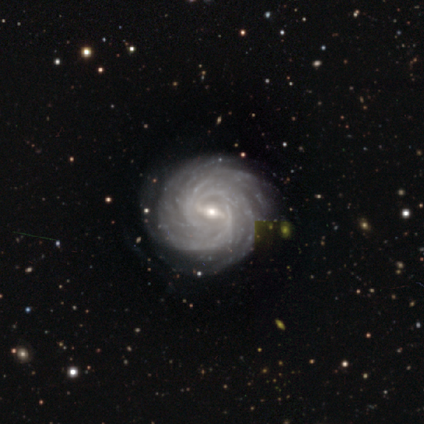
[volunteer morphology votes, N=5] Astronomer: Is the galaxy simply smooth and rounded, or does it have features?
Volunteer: featured or disk — 100%.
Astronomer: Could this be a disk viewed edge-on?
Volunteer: no — 100%.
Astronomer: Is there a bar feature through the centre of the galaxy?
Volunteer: weak — 80%.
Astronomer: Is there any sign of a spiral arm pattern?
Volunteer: yes — 100%.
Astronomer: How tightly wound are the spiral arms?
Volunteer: tight — 60% (runner-up: medium, 40%).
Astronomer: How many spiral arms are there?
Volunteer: can't tell — 40% (runner-up: 3, 20%).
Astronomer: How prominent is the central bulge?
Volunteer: small — 100%.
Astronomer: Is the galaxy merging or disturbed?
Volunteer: none — 100%.